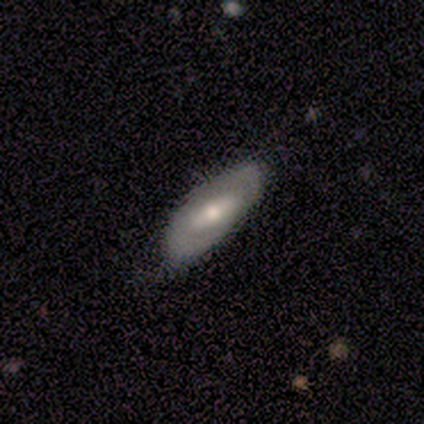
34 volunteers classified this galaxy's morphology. This appears to be a smooth galaxy with no disk features (50%) that is in between round and cigar-shaped (88%). Merging: none (65%).